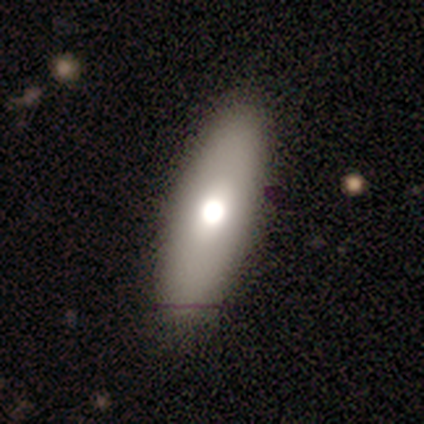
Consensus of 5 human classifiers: This appears to be a smooth galaxy with no disk features (60%) that is in between round and cigar-shaped (100%). Merging: none (100%).